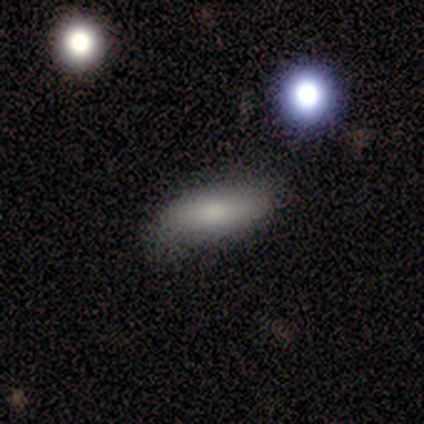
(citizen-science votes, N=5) Morphology: type=smooth (80%); roundness=in between (50%, tied with cigar-shaped); merging=none (50%, tied with minor disturbance).